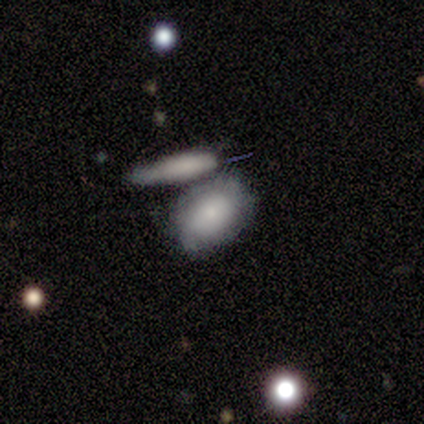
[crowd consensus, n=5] This appears to be a smooth galaxy with no disk features (60%) that is in between round and cigar-shaped (100%). Merging: none (80%).